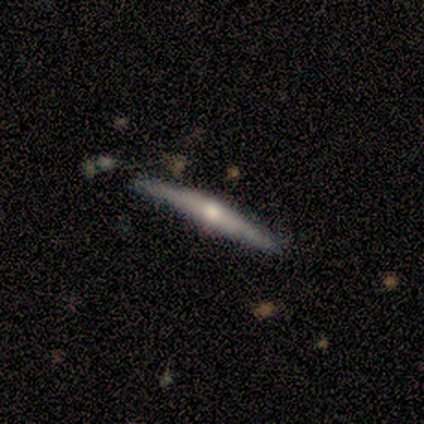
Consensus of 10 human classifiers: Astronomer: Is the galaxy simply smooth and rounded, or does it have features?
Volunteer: featured or disk — 80%.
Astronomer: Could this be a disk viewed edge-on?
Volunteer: yes — 100%.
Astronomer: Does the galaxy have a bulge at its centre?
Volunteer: rounded — 100%.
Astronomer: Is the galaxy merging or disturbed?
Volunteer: none — 80%.